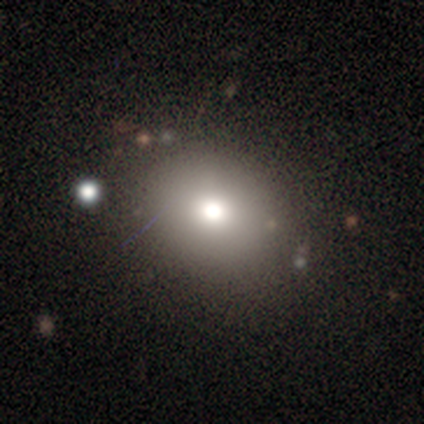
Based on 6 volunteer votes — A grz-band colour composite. It shows a smooth galaxy with no disk features (83%) that is in between round and cigar-shaped (60%). Merging: none (100%).